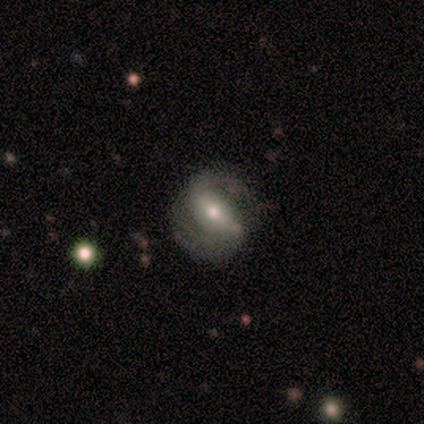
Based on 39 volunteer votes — Smooth or featured: featured or disk — 74% (smooth — 21%)
Edge-on disk: no — 90% (yes — 10%)
Bar: weak — 50% (strong — 38%)
Spiral arms: yes — 88% (no — 12%)
Spiral winding: medium — 57% (loose — 26%)
Spiral arm count: 2 — 96% (3 — 4%)
Bulge size: moderate — 58% (small — 38%)
Merging: none — 68% (minor disturbance — 16%)